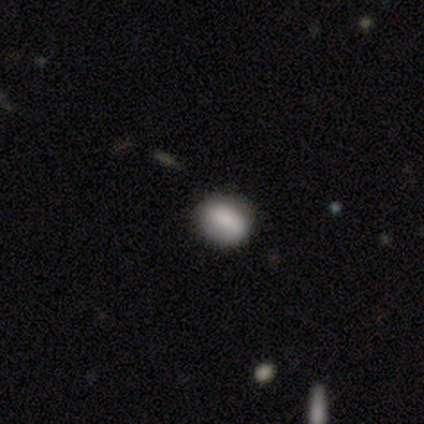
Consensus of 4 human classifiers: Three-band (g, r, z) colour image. It shows a smooth galaxy with no disk features (75%) that is in between round and cigar-shaped (67%). Merging: none (75%).